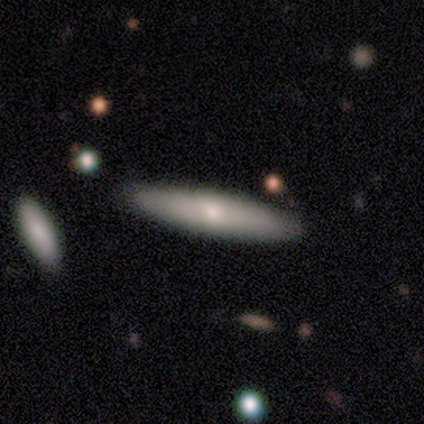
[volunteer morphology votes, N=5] Smooth or featured? 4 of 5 (80%) said smooth. How rounded? 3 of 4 (75%) said cigar-shaped. Merging? 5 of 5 (100%) said none.